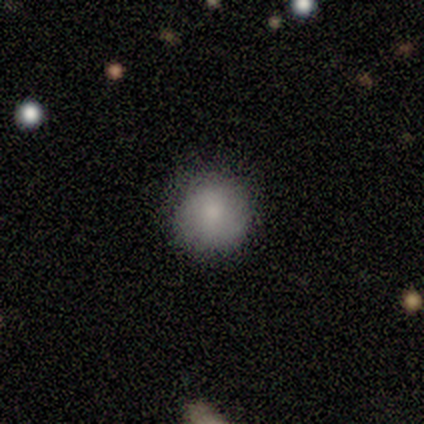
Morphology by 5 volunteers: This is clearly a smooth galaxy (100%). How rounded: clearly round (100%). Merging: clearly none (80%).